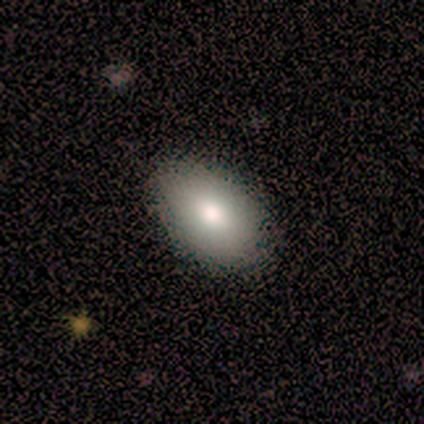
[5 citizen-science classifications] Smooth or featured?
  - smooth: 80% *
  - featured or disk: 20%
  - star or artifact: 0%
How rounded?
  - in between: 100% *
  - round: 0%
  - cigar-shaped: 0%
Merging?
  - none: 100% *
  - minor disturbance: 0%
  - major disturbance: 0%
  - merger: 0%